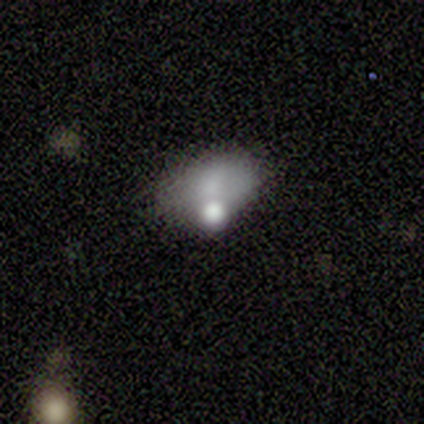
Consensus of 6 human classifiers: Overall: smooth (83%). How rounded: in between (80%). Merging: none (60%; minor disturbance 40%).